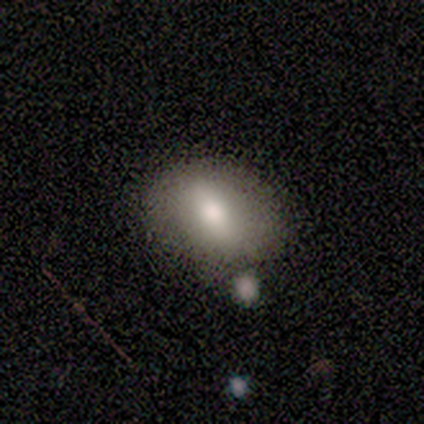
smooth 40% (tied), star or artifact 40% (tied), featured or disk 20%. Down the decision tree: how rounded — in between (100%); merging — none (100%).